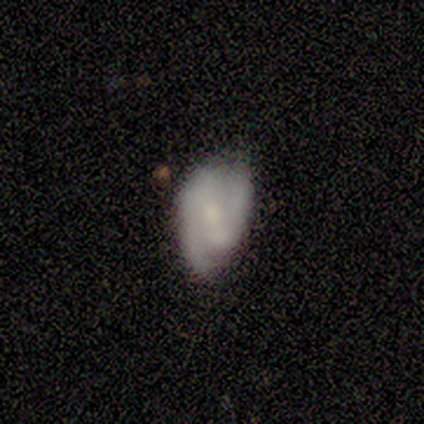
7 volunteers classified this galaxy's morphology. A featured or disk galaxy (43%) with no bar (67%), 2 (100%) medium (67%) spiral arms (100%) and no central bulge (67%).

Vote fractions:
- Smooth or featured? featured or disk: 43% / smooth: 29% / star or artifact: 29%
- Edge-on disk? no: 100% / yes: 0%
- Bar? no: 67% / weak: 33% / strong: 0%
- Spiral arms? yes: 100% / no: 0%
- Spiral winding? medium: 67% / tight: 33% / loose: 0%
- Spiral arm count? 2: 100% / 1: 0% / 3: 0% / 4: 0% / more than 4: 0% / can't tell: 0%
- Bulge size? none: 67% / small: 33% / dominant: 0% / large: 0% / moderate: 0%
- Merging? none: 80% / minor disturbance: 20% / major disturbance: 0% / merger: 0%